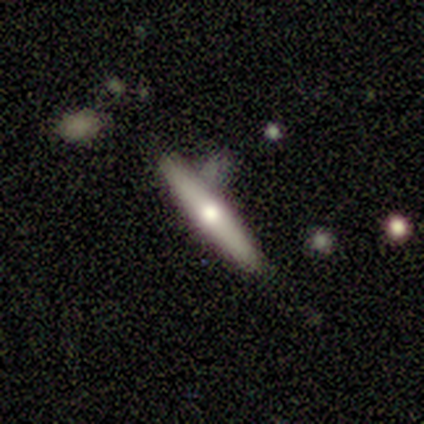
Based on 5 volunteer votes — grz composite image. It shows a featured or disk galaxy (80%) viewed edge-on (100%) with a rounded central bulge (75%). Merging: none (60%).